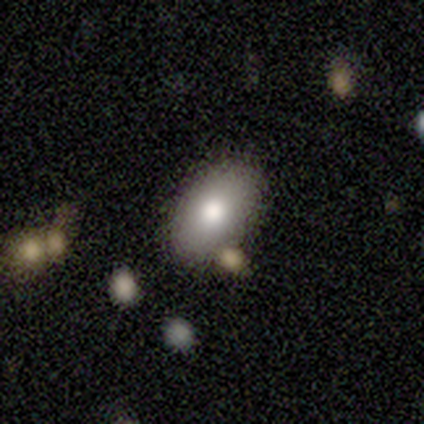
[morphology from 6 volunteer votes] Smooth or featured? 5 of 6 (83%) said smooth. How rounded? 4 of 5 (80%) said in between. Merging? 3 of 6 (50%) said none.